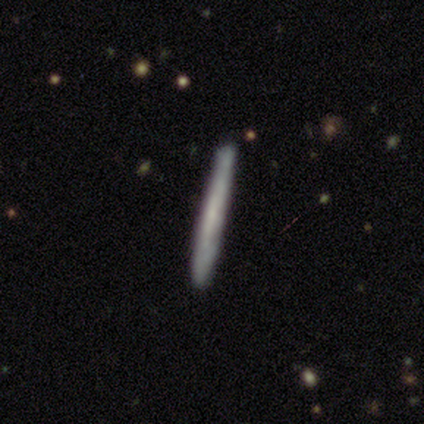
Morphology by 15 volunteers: Smooth or featured?
  - smooth: 60% *
  - featured or disk: 40%
  - star or artifact: 0%
How rounded?
  - cigar-shaped: 100% *
  - round: 0%
  - in between: 0%
Merging?
  - none: 87% *
  - minor disturbance: 13%
  - major disturbance: 0%
  - merger: 0%